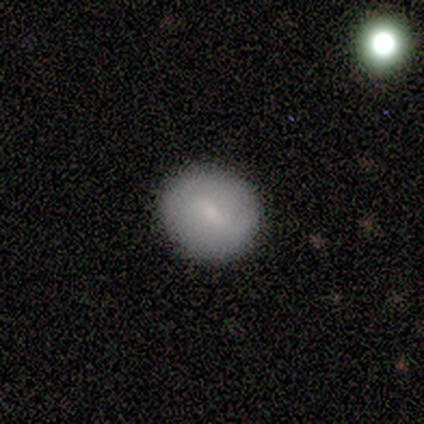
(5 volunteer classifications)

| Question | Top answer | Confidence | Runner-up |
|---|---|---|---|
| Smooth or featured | featured or disk | 60% | smooth (40%) |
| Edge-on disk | no | 100% | — |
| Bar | no | 67% | strong (33%) |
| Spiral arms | no | 100% | — |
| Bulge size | small | 100% | — |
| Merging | none | 100% | — |